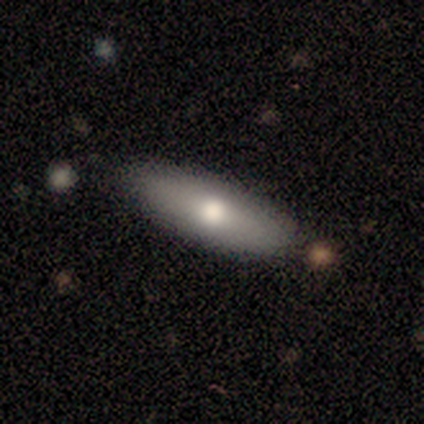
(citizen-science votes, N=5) Volunteers were most divided on "merging" (2-way tie): none: 50%, minor disturbance: 50%, major disturbance: 0%, merger: 0%. More confident: how rounded — cigar-shaped (67%); smooth or featured — smooth (60%).